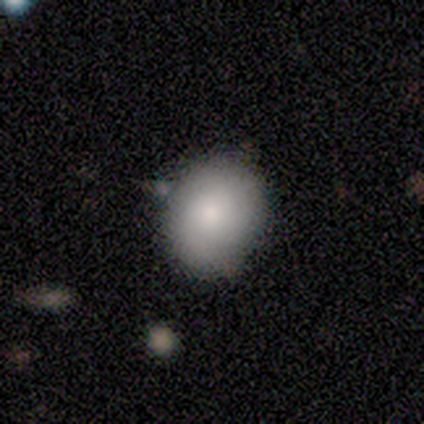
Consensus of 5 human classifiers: smooth_or_featured: smooth (p=1.00)
how_rounded: in between (p=0.60) [alt: round p=0.40]
merging: none (p=1.00)